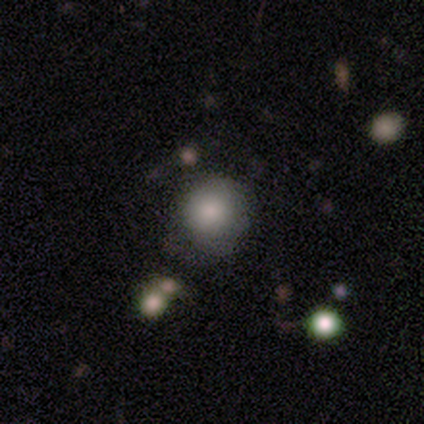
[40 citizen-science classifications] Q: Smooth or featured?
A: smooth (80%); runner-up: featured or disk (10%)
Q: How rounded?
A: round (94%); runner-up: in between (6%)
Q: Merging?
A: none (75%); runner-up: minor disturbance (11%)